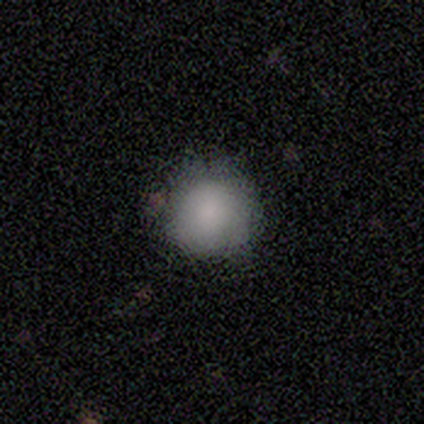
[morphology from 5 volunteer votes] Smooth or featured? 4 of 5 (80%) said smooth. How rounded? 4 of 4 (100%) said round. Merging? 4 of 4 (100%) said none.